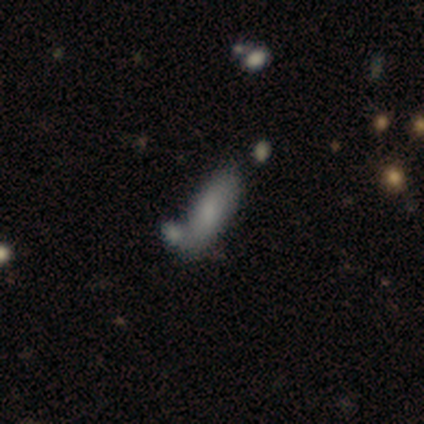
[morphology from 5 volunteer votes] This is likely a featured or disk galaxy (60%). It is likely not viewed edge-on (67%). Bar: clearly no (100%). Spiral arm pattern: clearly no (100%). Central bulge: possibly moderate (50%, tied with small). Merging: clearly none (80%).